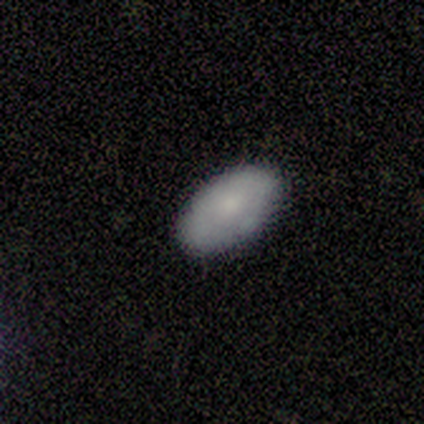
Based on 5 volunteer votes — smooth_or_featured: smooth (p=0.80) [alt: featured or disk p=0.20]
how_rounded: in between (p=0.75) [alt: round p=0.25]
merging: none (p=0.80) [alt: minor disturbance p=0.20]